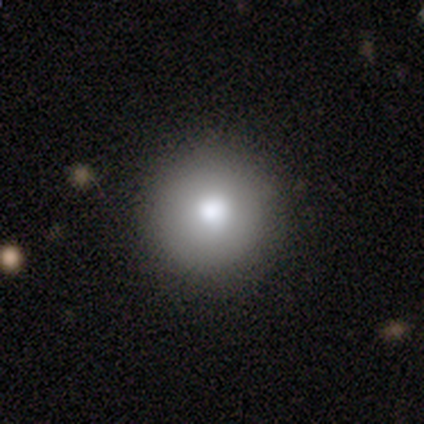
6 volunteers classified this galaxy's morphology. smooth-or-featured: smooth: 83% | star or artifact: 17% | featured or disk: 0%
  how-rounded: round: 80% | in between: 20% | cigar-shaped: 0%
  merging: none: 100% | minor disturbance: 0% | major disturbance: 0% | merger: 0%